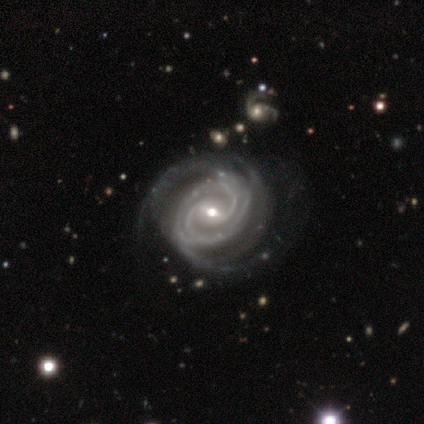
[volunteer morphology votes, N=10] Smooth or featured? featured or disk (100%)
Edge-on disk? no (100%)
Bar? weak (60%)
Spiral arms? yes (100%)
Spiral winding? tight (70%)
Spiral arm count? 2 (40%)
Bulge size? small (70%)
Merging? none (90%)